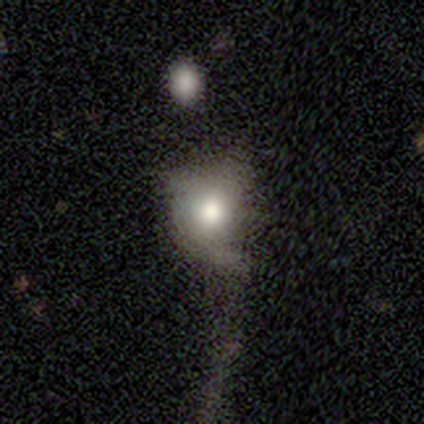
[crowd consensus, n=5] smooth-or-featured: smooth: 40% (tied) | star or artifact: 40% (tied) | featured or disk: 20%
  how-rounded: round: 50% (tied) | in between: 50% (tied) | cigar-shaped: 0%
  merging: none: 67% | major disturbance: 33% | minor disturbance: 0% | merger: 0%